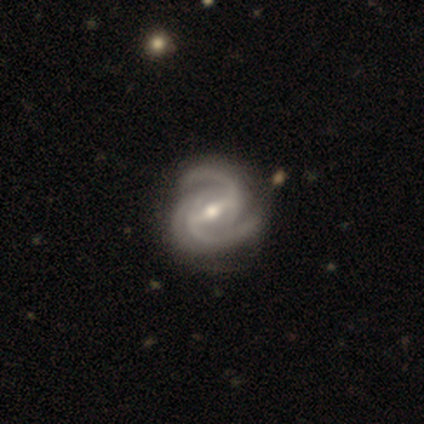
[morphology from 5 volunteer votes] smooth_or_featured: featured or disk (p=1.00)
disk_edge_on: no (p=1.00)
bar: weak (p=0.60) [alt: strong p=0.40]
has_spiral_arms: yes (p=1.00)
spiral_winding: tight (p=0.60) [alt: medium p=0.40]
spiral_arm_count: 2 (p=0.80) [alt: 3 p=0.20]
bulge_size: small (p=0.60) [alt: moderate p=0.40]
merging: none (p=1.00)